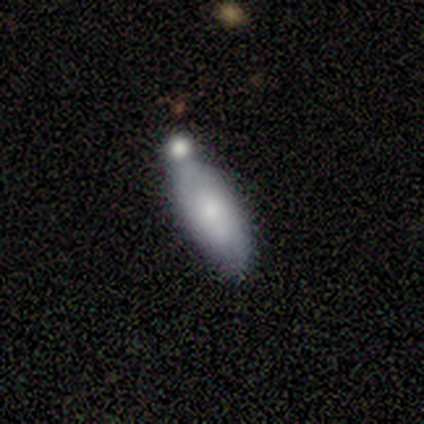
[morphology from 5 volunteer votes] A smooth galaxy with no disk features (60%) that is in between round and cigar-shaped (67%).

Vote fractions:
- Smooth or featured? smooth: 60% / featured or disk: 40% / star or artifact: 0%
- How rounded? in between: 67% / cigar-shaped: 33% / round: 0%
- Merging? merger: 80% / none: 20% / minor disturbance: 0% / major disturbance: 0%